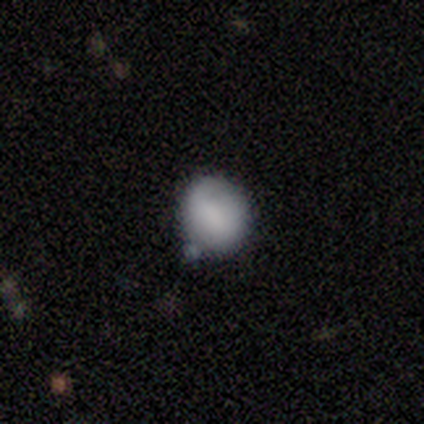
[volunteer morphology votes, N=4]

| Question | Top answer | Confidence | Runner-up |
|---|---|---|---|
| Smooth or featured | smooth | 100% | — |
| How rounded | round | 75% | in between (25%) |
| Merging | none | 75% | minor disturbance (25%) |